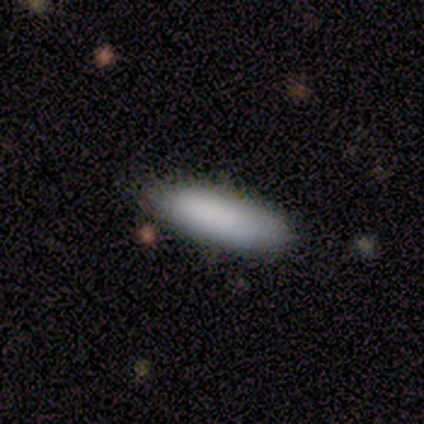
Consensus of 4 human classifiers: Smooth or featured: smooth — 100%
How rounded: cigar-shaped — 75% (in between — 25%)
Merging: none — 75% (minor disturbance — 25%)